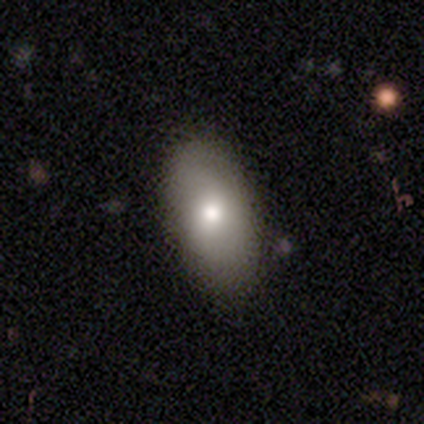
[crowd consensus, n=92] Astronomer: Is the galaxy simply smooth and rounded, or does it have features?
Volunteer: smooth — 72%.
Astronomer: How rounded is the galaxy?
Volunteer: in between — 92%.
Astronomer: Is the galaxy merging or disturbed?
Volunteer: none — 78%.